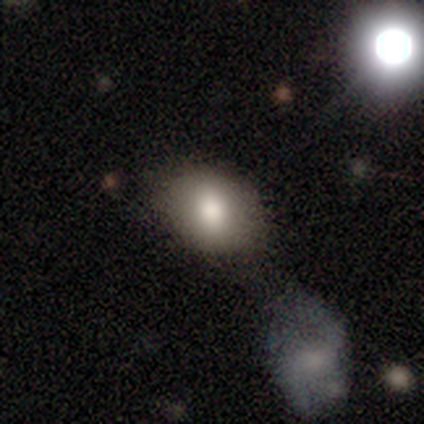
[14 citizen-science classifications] Smooth or featured?
  - smooth: 93% *
  - featured or disk: 7%
  - star or artifact: 0%
How rounded?
  - in between: 62% *
  - round: 38%
  - cigar-shaped: 0%
Merging?
  - none: 64% *
  - major disturbance: 14%
  - merger: 14%
  - minor disturbance: 7%